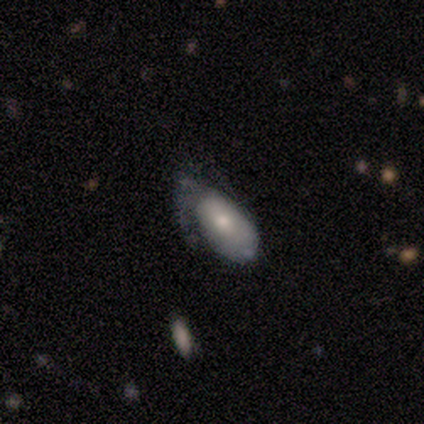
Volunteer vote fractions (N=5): This is clearly a smooth galaxy (80%). How rounded: clearly in between (100%). Merging: marginally minor disturbance (40%, tied with major disturbance).